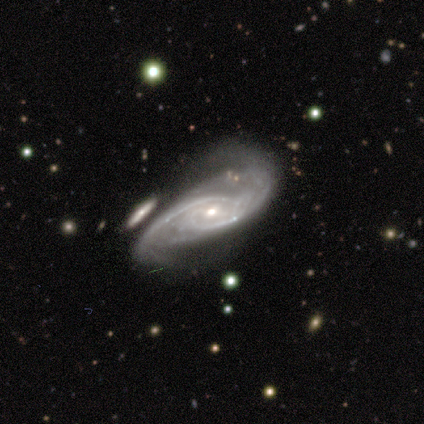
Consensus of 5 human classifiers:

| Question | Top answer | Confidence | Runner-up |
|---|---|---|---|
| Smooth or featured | featured or disk | 100% | — |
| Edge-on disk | no | 100% | — |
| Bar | weak | 80% | strong (20%) |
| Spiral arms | yes | 100% | — |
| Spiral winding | tight | 40% | tied: loose (40%) |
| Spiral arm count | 2 | 80% | 3 (20%) |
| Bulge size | moderate | 60% | small (40%) |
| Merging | major disturbance | 60% | none (20%) |